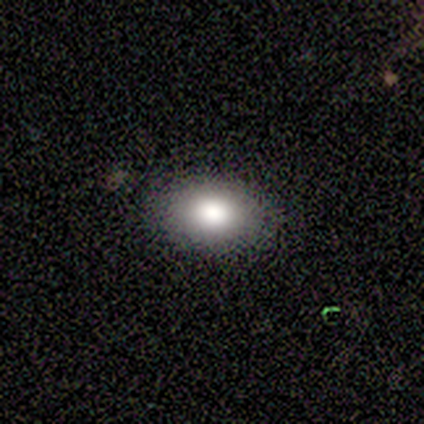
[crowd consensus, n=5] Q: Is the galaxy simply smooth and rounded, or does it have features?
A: smooth — 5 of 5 (100%).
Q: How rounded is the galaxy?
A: in between — 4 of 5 (80%).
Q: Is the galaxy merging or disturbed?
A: none — 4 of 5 (80%).